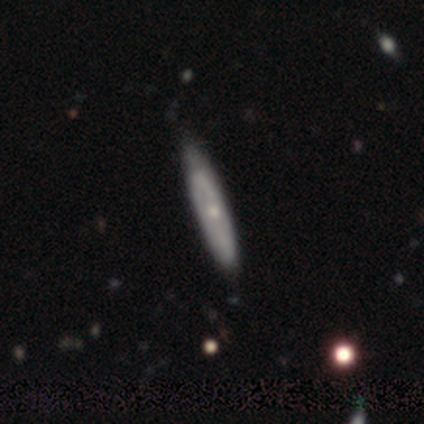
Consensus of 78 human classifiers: This is likely a featured or disk galaxy (63%). It is possibly viewed edge-on (53%). Edge-on bulge: possibly rounded (54%). Merging: marginally none (38%).